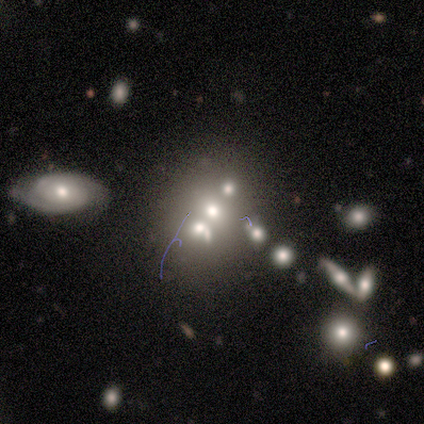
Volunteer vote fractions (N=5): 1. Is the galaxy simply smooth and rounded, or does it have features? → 80% smooth, 20% featured or disk, 0% star or artifact.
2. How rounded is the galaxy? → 75% round, 25% in between, 0% cigar-shaped.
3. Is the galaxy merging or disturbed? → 60% none, 40% merger, 0% minor disturbance, 0% major disturbance.